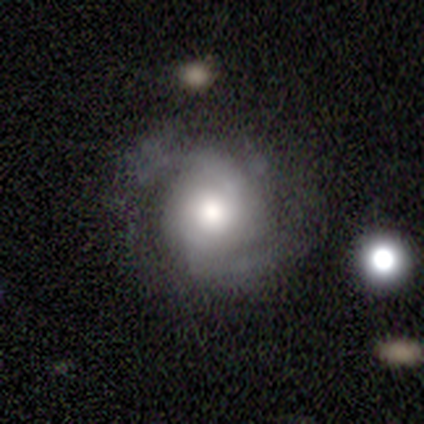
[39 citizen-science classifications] This appears to be a featured or disk galaxy (85%) with no bar (64%), 2 (66%) medium (59%) spiral arms (88%) and a moderate central bulge (48%). Merging: none (58%).